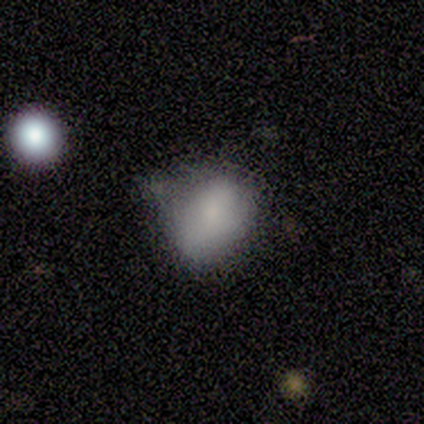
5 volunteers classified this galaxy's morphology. A smooth galaxy with no disk features (100%) that is in between round and cigar-shaped (80%).

Vote fractions:
- Smooth or featured? smooth: 100% / featured or disk: 0% / star or artifact: 0%
- How rounded? in between: 80% / round: 20% / cigar-shaped: 0%
- Merging? none: 40% (tied) / minor disturbance: 40% (tied) / major disturbance: 20% / merger: 0%